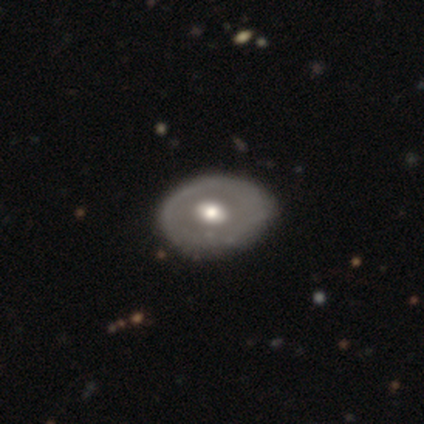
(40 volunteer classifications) Smooth or featured?
  - featured or disk: 70% *
  - smooth: 30%
  - star or artifact: 0%
Edge-on disk?
  - no: 96% *
  - yes: 4%
Bar?
  - no: 81% *
  - weak: 19%
  - strong: 0%
Spiral arms?
  - no: 93% *
  - yes: 7%
Bulge size?
  - moderate: 74% *
  - large: 22%
  - small: 4%
  - dominant: 0%
  - none: 0%
Merging?
  - none: 57% *
  - minor disturbance: 10%
  - major disturbance: 2%
  - merger: 2%